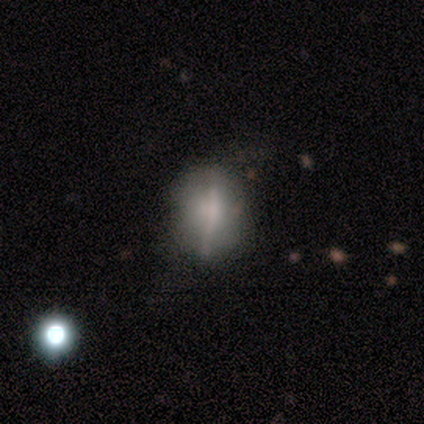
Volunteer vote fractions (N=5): This appears to be a smooth galaxy with no disk features (80%) that is round (75%). Merging: none (60%).